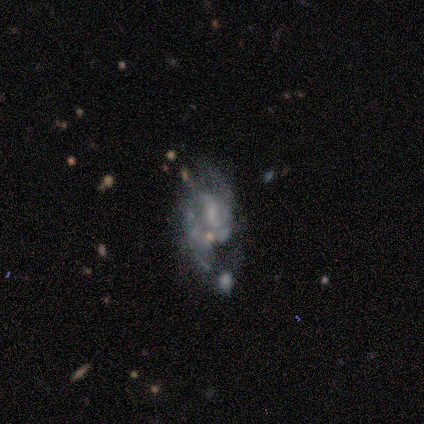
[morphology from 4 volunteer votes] smooth_or_featured: featured or disk (p=1.00)
disk_edge_on: no (p=1.00)
bar: no (p=0.75) [alt: weak p=0.25]
has_spiral_arms: yes (p=0.50) [tied with: no p=0.50]
spiral_winding: loose (p=1.00)
spiral_arm_count: 1 (p=0.50) [tied with: 2 p=0.50]
bulge_size: large (p=0.25) [tied with: moderate p=0.25, small p=0.25, none p=0.25]
merging: minor disturbance (p=0.50) [tied with: merger p=0.50]